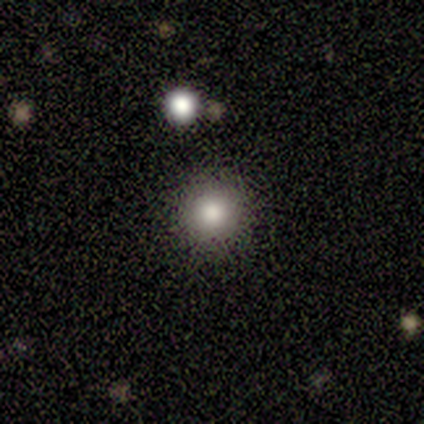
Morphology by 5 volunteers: Smooth or featured? 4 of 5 (80%) said smooth. How rounded? 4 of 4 (100%) said round. Merging? 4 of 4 (100%) said none.